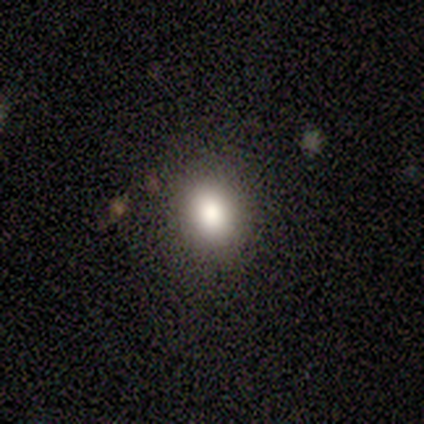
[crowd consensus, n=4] This is likely a smooth galaxy (75%). How rounded: clearly round (100%). Merging: clearly none (100%).